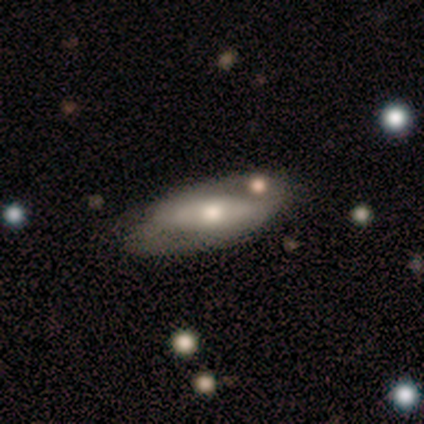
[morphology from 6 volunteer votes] smooth-or-featured: smooth: 50% (tied) | featured or disk: 50% (tied) | star or artifact: 0%
  how-rounded: in between: 100% | round: 0% | cigar-shaped: 0%
  merging: none: 67% | minor disturbance: 17% | major disturbance: 17% | merger: 0%